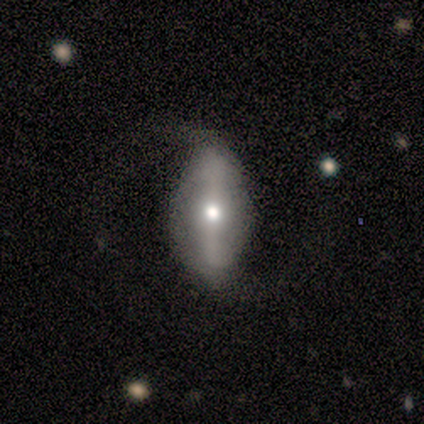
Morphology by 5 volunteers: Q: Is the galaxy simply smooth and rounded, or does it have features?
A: featured or disk — 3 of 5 (60%).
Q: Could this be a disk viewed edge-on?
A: no — 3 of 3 (100%).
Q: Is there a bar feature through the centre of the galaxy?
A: strong — 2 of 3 (67%).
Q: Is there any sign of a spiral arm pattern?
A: yes — 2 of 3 (67%).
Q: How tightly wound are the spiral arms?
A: loose — 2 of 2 (100%).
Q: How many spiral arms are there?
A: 2 — 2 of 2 (100%).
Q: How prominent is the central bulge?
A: moderate — 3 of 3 (100%).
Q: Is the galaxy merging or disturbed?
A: none — 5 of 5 (100%).